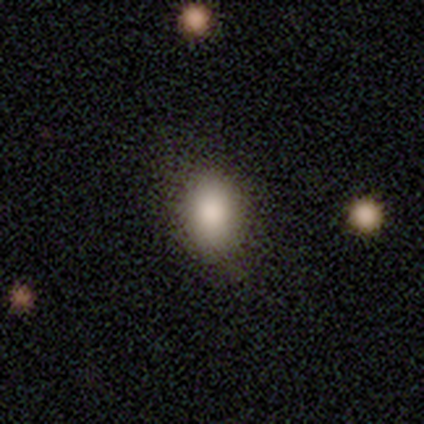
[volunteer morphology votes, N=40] Smooth or featured: smooth — 90% (featured or disk — 5%)
How rounded: in between — 75% (round — 25%)
Merging: none — 58% (minor disturbance — 8%)